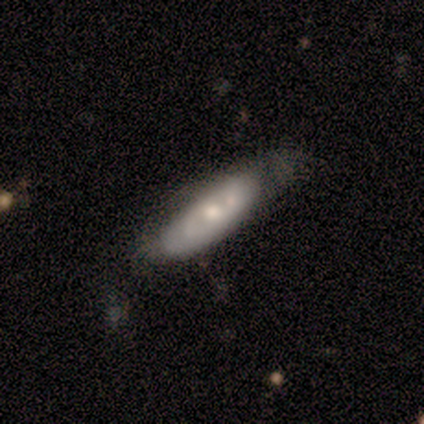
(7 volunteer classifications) A featured or disk galaxy (86%) with no bar (100%), no spiral arms (100%) and a moderate central bulge (75%).

Vote fractions:
- Smooth or featured? featured or disk: 86% / smooth: 14% / star or artifact: 0%
- Edge-on disk? no: 67% / yes: 33%
- Bar? no: 100% / strong: 0% / weak: 0%
- Spiral arms? no: 100% / yes: 0%
- Bulge size? moderate: 75% / small: 25% / dominant: 0% / large: 0% / none: 0%
- Merging? none: 57% / minor disturbance: 29% / major disturbance: 14% / merger: 0%